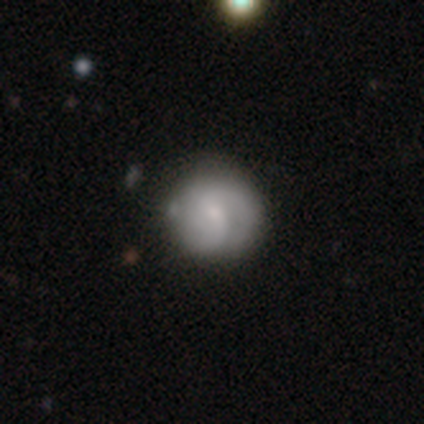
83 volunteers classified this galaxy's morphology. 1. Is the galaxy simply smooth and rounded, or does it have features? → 61% featured or disk, 34% smooth, 5% star or artifact.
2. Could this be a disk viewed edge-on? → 98% no, 2% yes.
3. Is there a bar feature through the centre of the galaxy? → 50% weak, 46% no, 4% strong.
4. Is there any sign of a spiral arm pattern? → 92% yes, 8% no.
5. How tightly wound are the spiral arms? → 37% tight, 35% medium, 28% loose.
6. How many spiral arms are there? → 65% 2, 15% can't tell, 11% 3, 9% 1, 0% 4, 0% more than 4.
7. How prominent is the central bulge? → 70% small, 16% moderate, 8% large, 4% none, 2% dominant.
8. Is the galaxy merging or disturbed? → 73% none, 20% minor disturbance, 4% major disturbance, 3% merger.